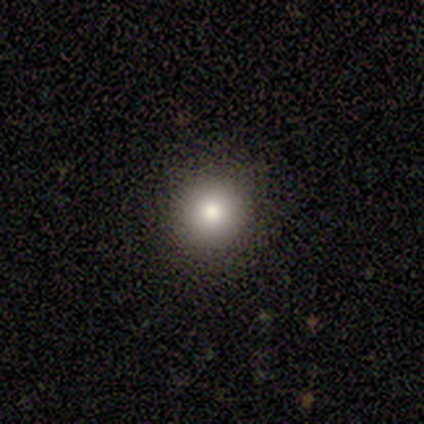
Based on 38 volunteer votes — This is likely a smooth galaxy (76%). How rounded: clearly round (97%). Merging: clearly none (97%).